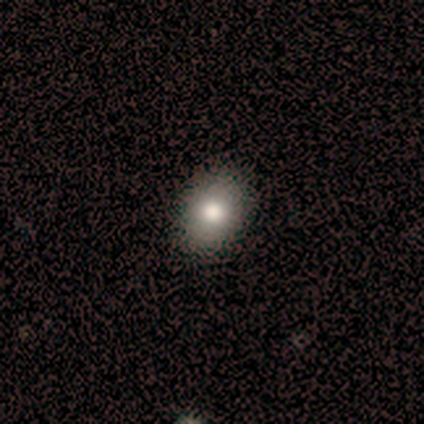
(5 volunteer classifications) Smooth or featured: smooth — 60% (featured or disk — 20%)
How rounded: in between — 67% (round — 33%)
Merging: none — 100%